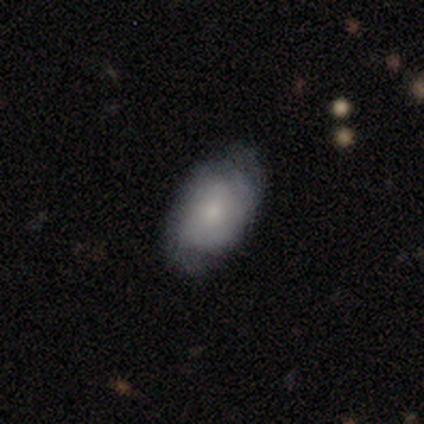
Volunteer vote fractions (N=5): This appears to be a smooth galaxy with no disk features (80%) that is in between round and cigar-shaped (100%). Merging: minor disturbance (60%).